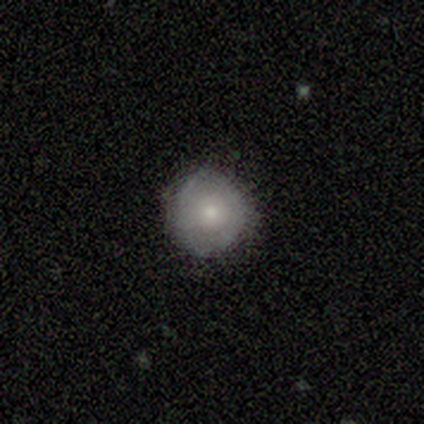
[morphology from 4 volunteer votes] smooth_or_featured: smooth (p=0.50) [alt: featured or disk p=0.25]
how_rounded: round (p=1.00)
merging: none (p=1.00)